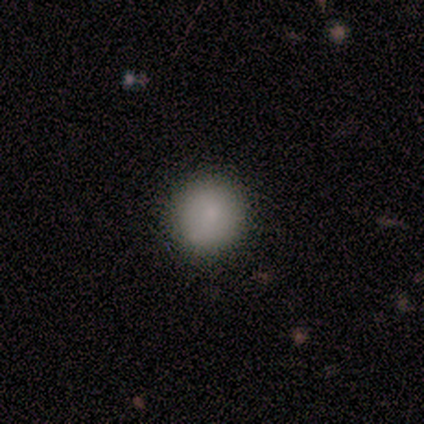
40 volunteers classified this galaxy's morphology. Volunteers were most divided on "how rounded": round: 85%, in between: 15%, cigar-shaped: 0%. More confident: merging — none (86%); smooth or featured — smooth (82%).